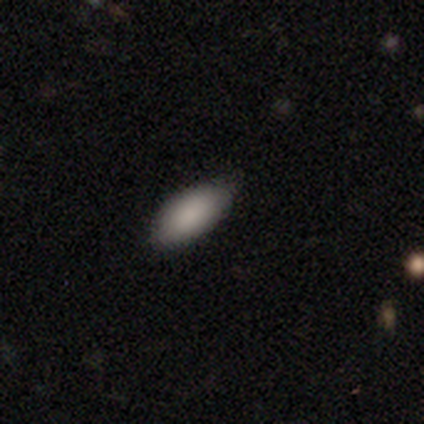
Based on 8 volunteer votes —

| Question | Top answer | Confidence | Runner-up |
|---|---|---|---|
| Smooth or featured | smooth | 88% | featured or disk (12%) |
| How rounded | in between | 71% | cigar-shaped (29%) |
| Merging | none | 88% | minor disturbance (12%) |